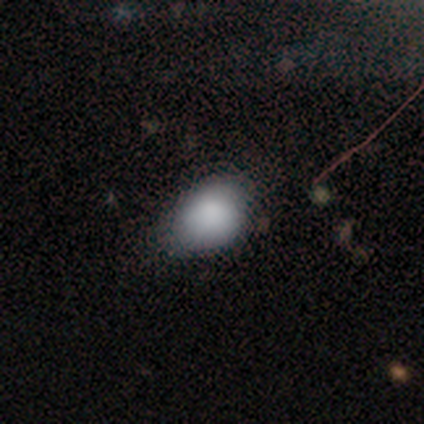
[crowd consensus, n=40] Smooth or featured: smooth — 90% (featured or disk — 5%)
How rounded: round — 50% (tied with in between — 50%)
Merging: none — 47% (minor disturbance — 24%)